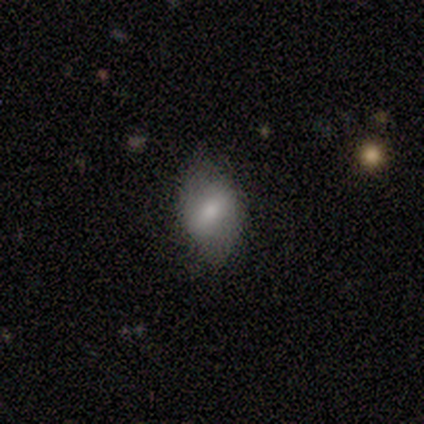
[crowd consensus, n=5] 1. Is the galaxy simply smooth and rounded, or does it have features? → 60% featured or disk, 40% smooth, 0% star or artifact.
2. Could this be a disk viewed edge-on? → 100% no, 0% yes.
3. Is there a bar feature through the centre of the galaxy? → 67% weak, 33% strong, 0% no.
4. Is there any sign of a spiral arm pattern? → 67% yes, 33% no.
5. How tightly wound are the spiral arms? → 50% tight (tied), 50% loose (tied), 0% medium.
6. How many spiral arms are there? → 100% 2, 0% 1, 0% 3, 0% 4, 0% more than 4, 0% can't tell.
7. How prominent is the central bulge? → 67% small, 33% moderate, 0% dominant, 0% large, 0% none.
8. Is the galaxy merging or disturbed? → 100% none, 0% minor disturbance, 0% major disturbance, 0% merger.